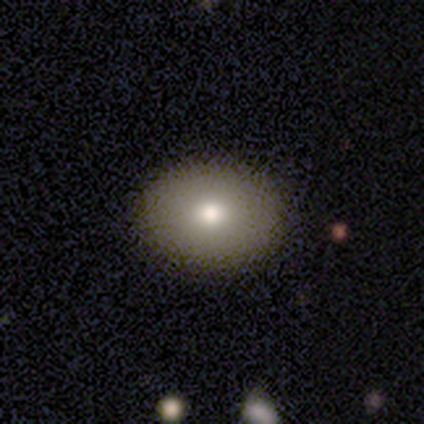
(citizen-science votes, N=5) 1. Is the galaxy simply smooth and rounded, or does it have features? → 80% smooth, 20% star or artifact, 0% featured or disk.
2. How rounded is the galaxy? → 100% in between, 0% round, 0% cigar-shaped.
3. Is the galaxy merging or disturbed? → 100% none, 0% minor disturbance, 0% major disturbance, 0% merger.